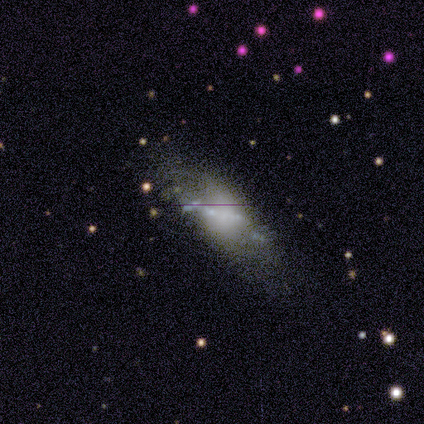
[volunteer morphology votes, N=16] smooth-or-featured: featured or disk: 62% | smooth: 19% | star or artifact: 19%
  disk-edge-on: no: 90% | yes: 10%
    bar: no: 67% | weak: 22% | strong: 11%
    has-spiral-arms: no: 78% | yes: 22%
    bulge-size: none: 67% | large: 11% | moderate: 11% | small: 11% | dominant: 0%
  merging: none: 54% | minor disturbance: 23% | major disturbance: 23% | merger: 0%